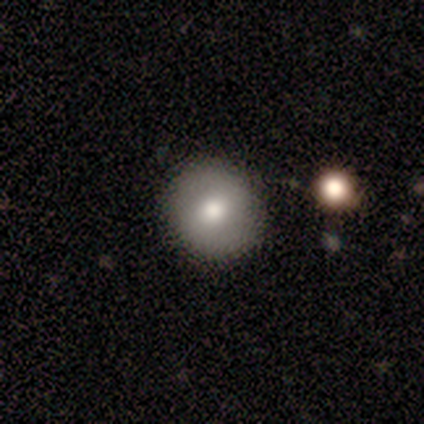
smooth 67%, featured or disk 33%, star or artifact 0%. Down the decision tree: how rounded — round (100%); merging — none (67%).